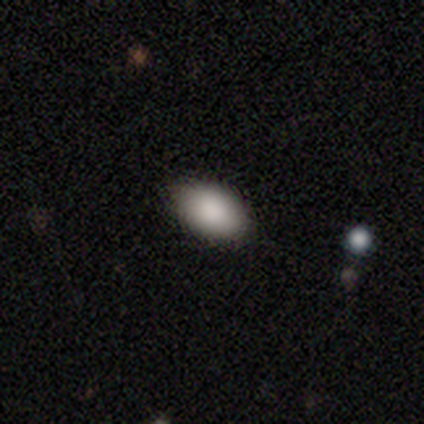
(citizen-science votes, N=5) Smooth or featured? 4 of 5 (80%) said smooth. How rounded? 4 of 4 (100%) said in between. Merging? 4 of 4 (100%) said none.